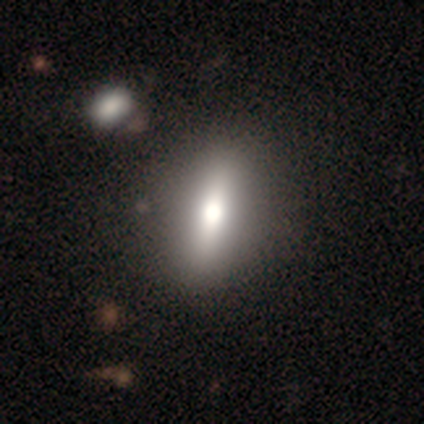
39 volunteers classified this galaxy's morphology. Smooth or featured: smooth — 74% (featured or disk — 23%)
How rounded: in between — 76% (cigar-shaped — 14%)
Merging: none — 58% (merger — 16%)